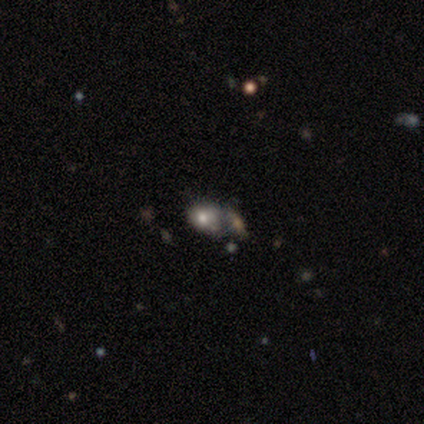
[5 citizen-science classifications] smooth 80%, star or artifact 20%, featured or disk 0%. Down the decision tree: how rounded — in between (75%); merging — merger (50%).